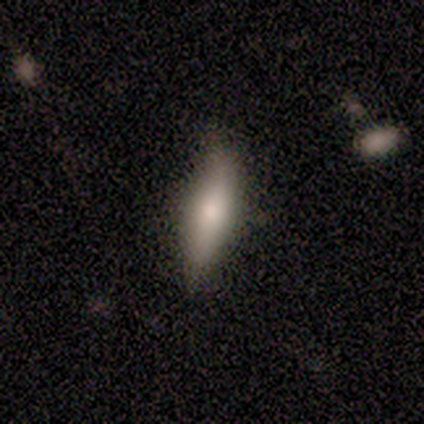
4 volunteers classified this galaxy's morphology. This is clearly a smooth galaxy (100%). How rounded: likely cigar-shaped (75%). Merging: clearly none (100%).